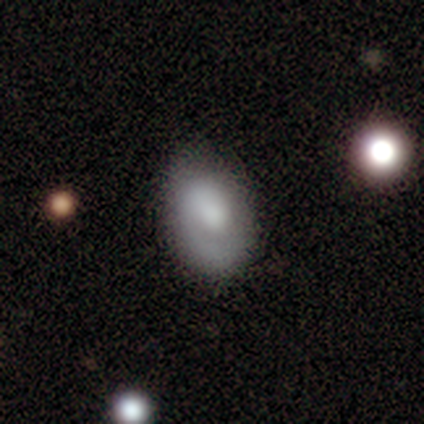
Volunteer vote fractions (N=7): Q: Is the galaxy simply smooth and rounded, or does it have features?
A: featured or disk — 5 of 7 (71%).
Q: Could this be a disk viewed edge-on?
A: no — 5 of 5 (100%).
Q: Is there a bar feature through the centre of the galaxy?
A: no — 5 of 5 (100%).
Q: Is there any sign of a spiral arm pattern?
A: yes — 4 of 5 (80%).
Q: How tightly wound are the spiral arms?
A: tight — 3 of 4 (75%).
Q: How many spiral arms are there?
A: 1 — 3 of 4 (75%).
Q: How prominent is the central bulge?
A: large — 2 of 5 (40%, tied with none).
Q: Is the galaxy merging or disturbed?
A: none — 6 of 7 (86%).